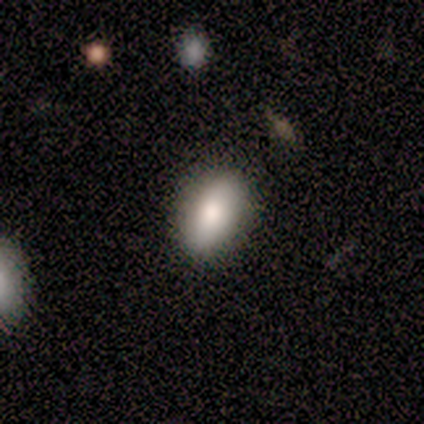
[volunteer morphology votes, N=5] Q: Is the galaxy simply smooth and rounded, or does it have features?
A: smooth — 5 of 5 (100%).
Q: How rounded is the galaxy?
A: in between — 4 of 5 (80%).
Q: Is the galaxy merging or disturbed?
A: none — 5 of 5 (100%).